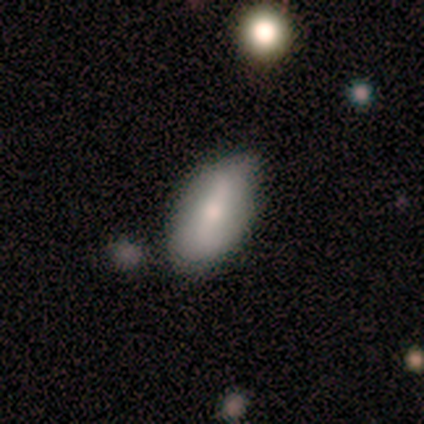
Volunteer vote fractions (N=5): Smooth or featured? 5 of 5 (100%) said smooth. How rounded? 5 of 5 (100%) said in between. Merging? 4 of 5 (80%) said none.